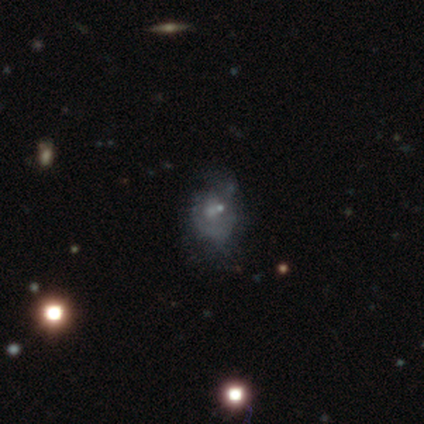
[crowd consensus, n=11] Smooth or featured? featured or disk (82%)
Edge-on disk? no (100%)
Bar? no (89%)
Spiral arms? no (67%)
Bulge size? moderate (44%, tied with small)
Merging? none (55%)